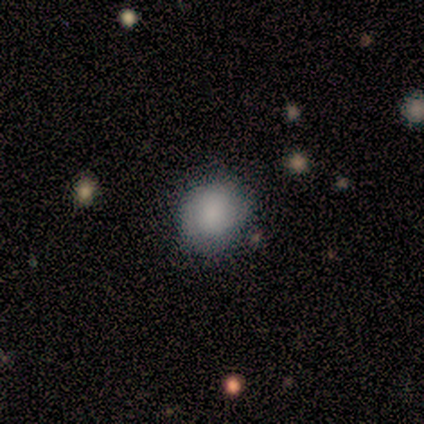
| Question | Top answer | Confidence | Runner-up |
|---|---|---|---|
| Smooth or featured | smooth | 100% | — |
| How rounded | round | 100% | — |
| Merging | none | 100% | — |